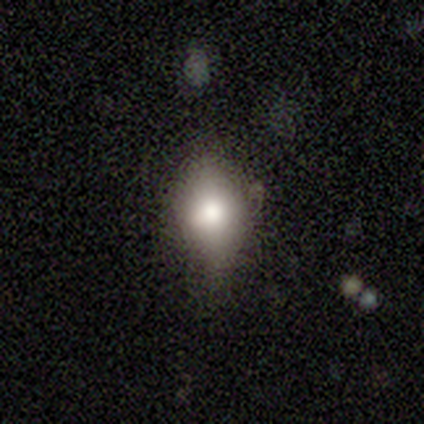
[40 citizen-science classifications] smooth-or-featured: smooth: 65% | featured or disk: 22% | star or artifact: 12%
  how-rounded: in between: 81% | round: 19% | cigar-shaped: 0%
  merging: none: 46% (tied) | minor disturbance: 46% (tied) | major disturbance: 6% | merger: 3%